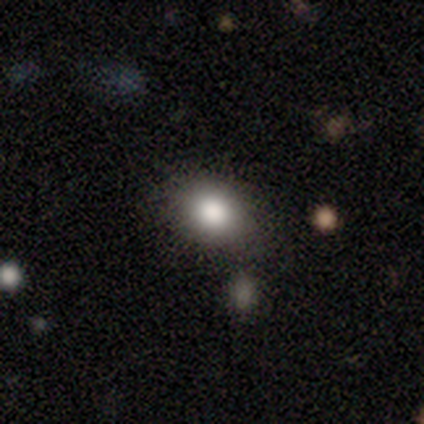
smooth 74%, star or artifact 18%, featured or disk 8%. Down the decision tree: how rounded — in between (61%); merging — none (65%).